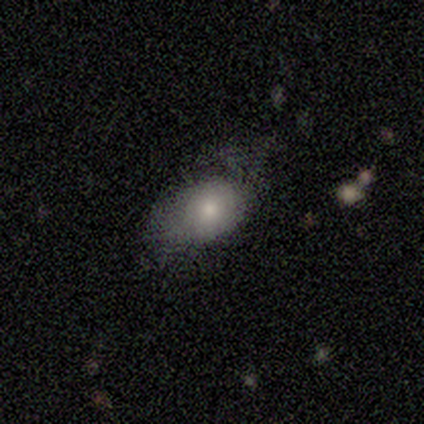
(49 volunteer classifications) Volunteers were most divided on "smooth or featured": smooth: 51%, featured or disk: 47%, star or artifact: 2%. Remaining: how rounded — in between (84%); merging — minor disturbance (40%).